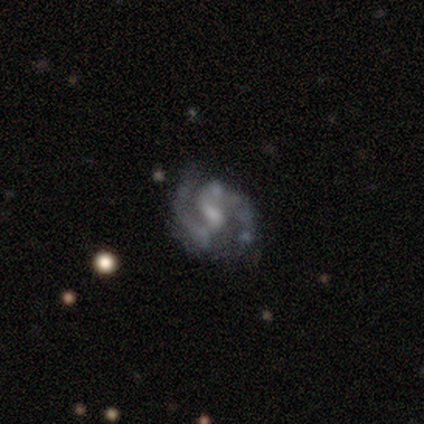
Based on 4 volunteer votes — Morphology: type=featured or disk (100%); edge-on=no (100%); bar=strong (50%, tied with weak); spiral arms=yes (100%); winding=medium (100%); arm count=2 (100%); bulge=moderate (50%); merging=none (75%).